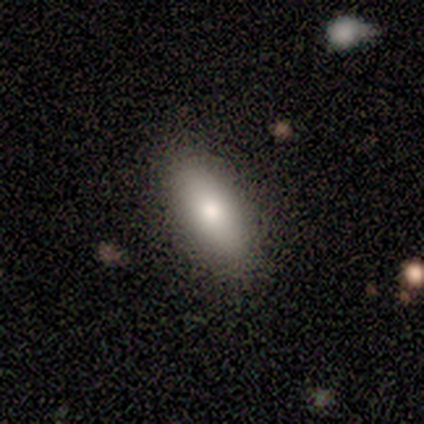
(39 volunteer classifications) smooth-or-featured: smooth: 87% | featured or disk: 10% | star or artifact: 3%
  how-rounded: in between: 85% | cigar-shaped: 9% | round: 6%
  merging: none: 89% | minor disturbance: 11% | major disturbance: 0% | merger: 0%